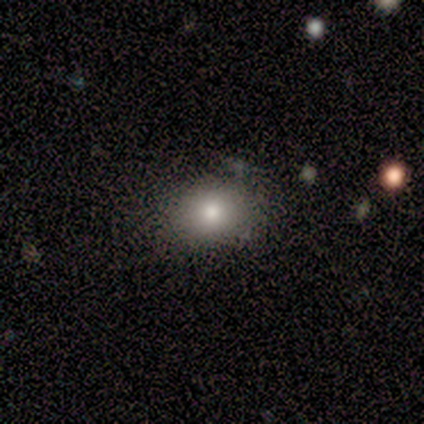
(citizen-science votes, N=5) This is clearly a smooth galaxy (100%). How rounded: likely round (60%). Merging: clearly none (100%).